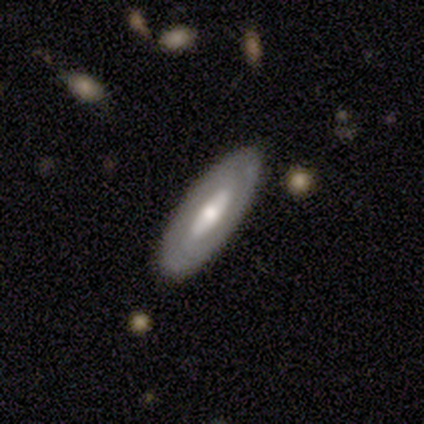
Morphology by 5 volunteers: smooth_or_featured: featured or disk (p=0.80) [alt: smooth p=0.20]
disk_edge_on: no (p=1.00)
bar: strong (p=0.50) [alt: weak p=0.25]
has_spiral_arms: yes (p=0.50) [tied with: no p=0.50]
spiral_winding: tight (p=0.50) [tied with: medium p=0.50]
spiral_arm_count: 2 (p=0.50) [tied with: can't tell p=0.50]
bulge_size: moderate (p=0.50) [alt: large p=0.25]
merging: none (p=0.80) [alt: minor disturbance p=0.20]